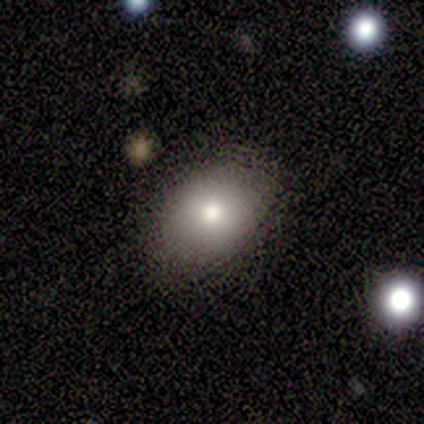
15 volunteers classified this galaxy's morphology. smooth 60%, featured or disk 33%, star or artifact 7%. Down the decision tree: how rounded — in between (67%); merging — none (100%).